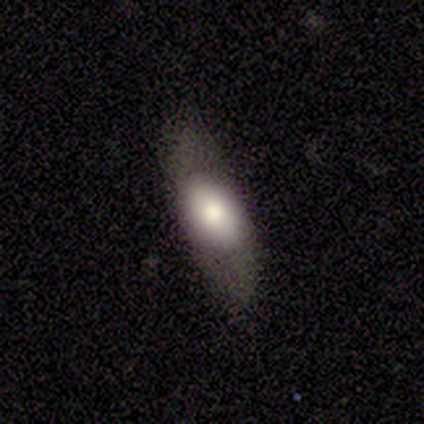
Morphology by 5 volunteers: Smooth or featured? smooth (60%)
How rounded? in between (100%)
Merging? none (100%)